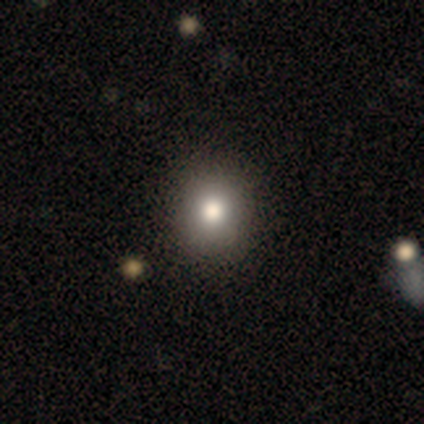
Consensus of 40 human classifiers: A smooth galaxy with no disk features (72%) that is round (76%).

Vote fractions:
- Smooth or featured? smooth: 72% / star or artifact: 15% / featured or disk: 12%
- How rounded? round: 76% / in between: 24% / cigar-shaped: 0%
- Merging? none: 71% / minor disturbance: 6% / major disturbance: 3% / merger: 0%